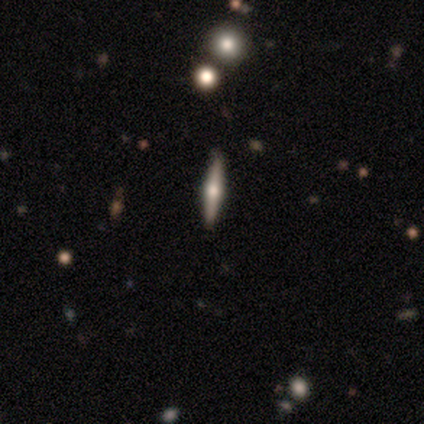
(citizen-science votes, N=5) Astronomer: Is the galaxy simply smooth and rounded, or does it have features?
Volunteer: featured or disk — 60%.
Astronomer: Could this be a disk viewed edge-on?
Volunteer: yes — 100%.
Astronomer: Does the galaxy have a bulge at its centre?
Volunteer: rounded — 100%.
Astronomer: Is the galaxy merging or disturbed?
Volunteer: none — 75%.